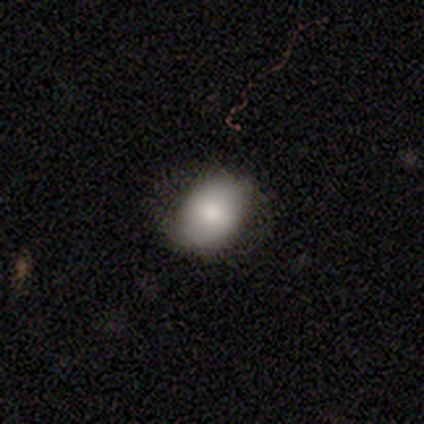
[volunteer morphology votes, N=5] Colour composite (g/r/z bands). It shows a smooth galaxy with no disk features (100%) that is in between round and cigar-shaped (60%). Merging: none (100%).